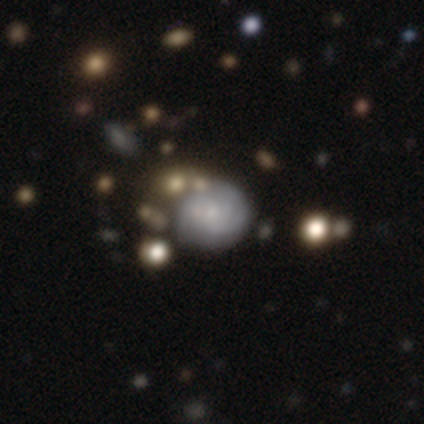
Overall: smooth (40%, tied with featured or disk). How rounded: round (100%). Merging: none (50%; minor disturbance 25%).